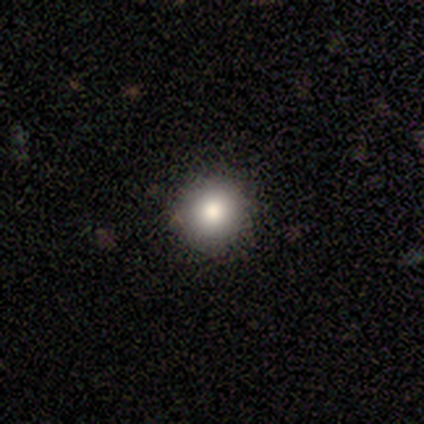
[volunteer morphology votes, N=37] Smooth or featured?
  - smooth: 81% *
  - star or artifact: 11%
  - featured or disk: 8%
How rounded?
  - round: 93% *
  - in between: 7%
  - cigar-shaped: 0%
Merging?
  - none: 94% *
  - minor disturbance: 3%
  - major disturbance: 3%
  - merger: 0%